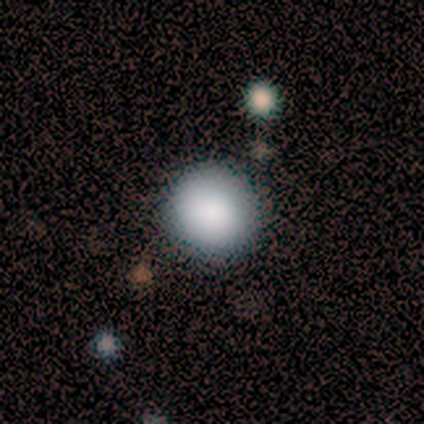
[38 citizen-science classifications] Overall: smooth (87%). How rounded: round (97%). Merging: none (92%).